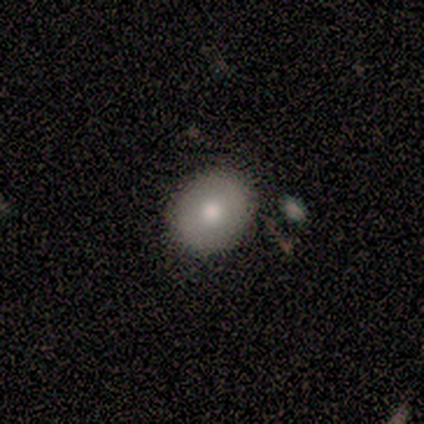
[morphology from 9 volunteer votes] This is clearly a smooth galaxy (100%). How rounded: likely round (67%). Merging: clearly none (89%).